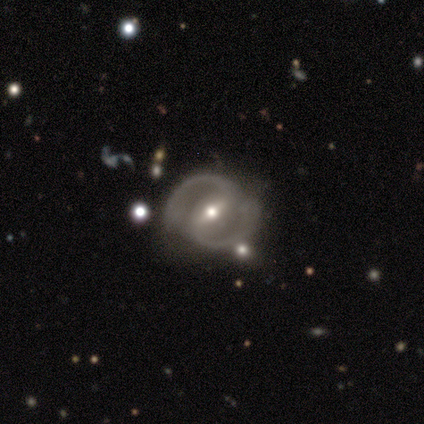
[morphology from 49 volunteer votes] This is clearly a featured or disk galaxy (92%). It is clearly not viewed edge-on (96%). Bar: possibly weak (51%). Spiral arm pattern: clearly yes (100%). Spiral arm count: clearly 2 (100%). Spiral winding: likely medium (63%). Central bulge: likely moderate (65%). Merging: likely none (76%).